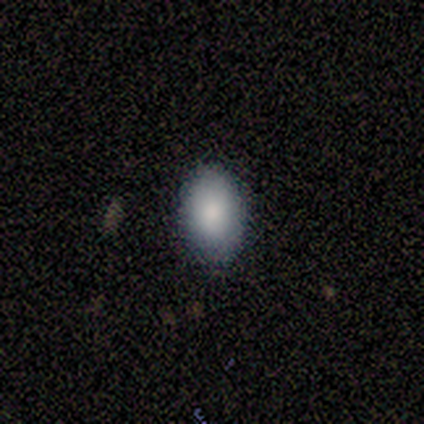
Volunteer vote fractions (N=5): Smooth or featured: smooth — 60% (featured or disk — 20%)
How rounded: in between — 100%
Merging: none — 75% (minor disturbance — 25%)